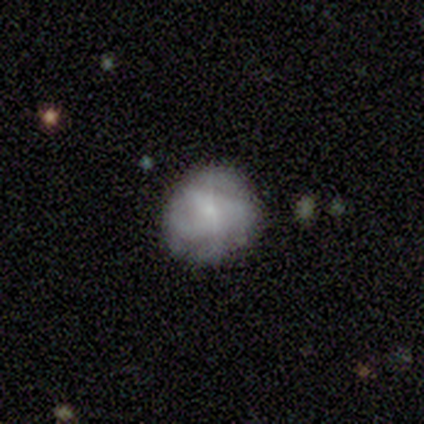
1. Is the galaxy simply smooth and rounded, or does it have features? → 44% smooth (tied), 44% featured or disk (tied), 11% star or artifact.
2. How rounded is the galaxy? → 75% round, 25% in between, 0% cigar-shaped.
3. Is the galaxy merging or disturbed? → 100% none, 0% minor disturbance, 0% major disturbance, 0% merger.